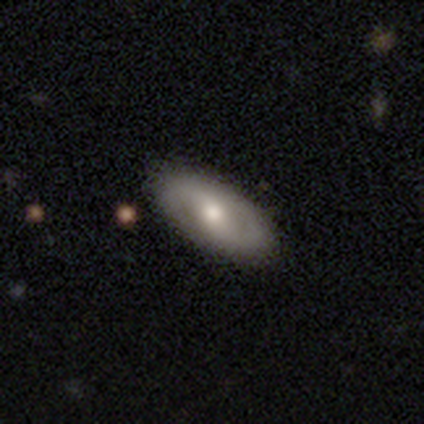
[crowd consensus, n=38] This appears to be a featured or disk galaxy (50%) with a weak bar (44%, tied with no), 2 (100%) tight (43%, tied with medium) spiral arms (78%) and a moderate central bulge (67%). Merging: none (79%).